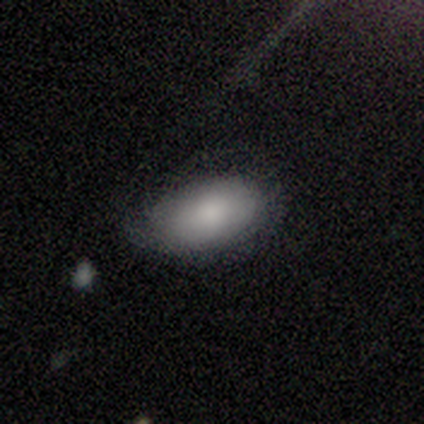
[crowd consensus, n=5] smooth_or_featured: smooth (p=0.80) [alt: featured or disk p=0.20]
how_rounded: in between (p=1.00)
merging: minor disturbance (p=0.60) [alt: none p=0.40]